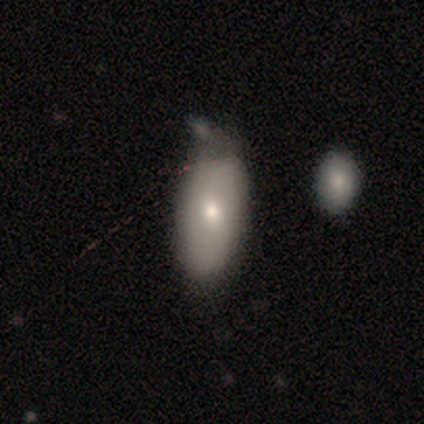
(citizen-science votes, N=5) A smooth galaxy with no disk features (80%) that is in between round and cigar-shaped (75%).

Vote fractions:
- Smooth or featured? smooth: 80% / featured or disk: 20% / star or artifact: 0%
- How rounded? in between: 75% / round: 25% / cigar-shaped: 0%
- Merging? none: 60% / minor disturbance: 40% / major disturbance: 0% / merger: 0%